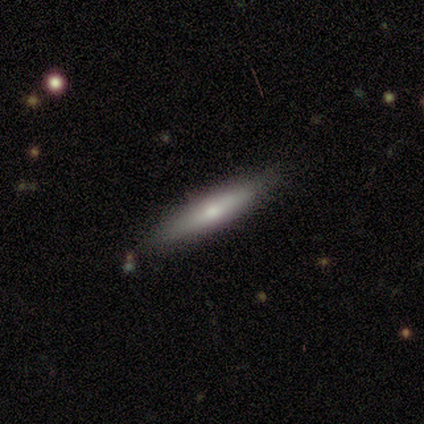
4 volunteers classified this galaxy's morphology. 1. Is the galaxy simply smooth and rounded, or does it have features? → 50% smooth (tied), 50% featured or disk (tied), 0% star or artifact.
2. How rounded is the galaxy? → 100% cigar-shaped, 0% round, 0% in between.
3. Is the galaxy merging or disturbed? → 100% none, 0% minor disturbance, 0% major disturbance, 0% merger.